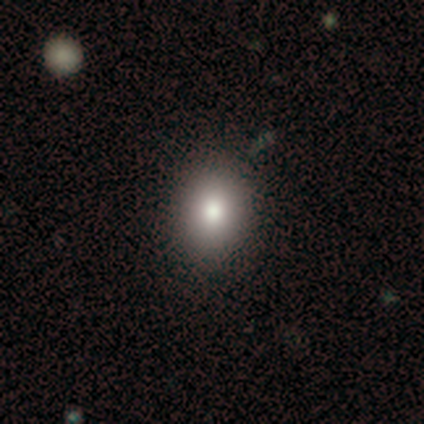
Smooth or featured: smooth — 40% (tied with star or artifact — 40%)
How rounded: round — 50% (tied with in between — 50%)
Merging: none — 33% (tied with minor disturbance — 33%; merger — 33%)